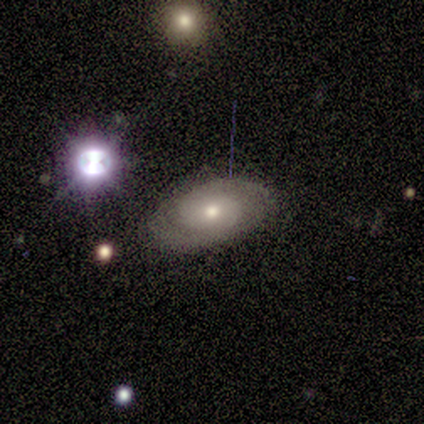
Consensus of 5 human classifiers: Smooth or featured: featured or disk — 60% (smooth — 40%)
Edge-on disk: no — 67% (yes — 33%)
Bar: no — 100%
Spiral arms: yes — 100%
Spiral winding: tight — 50% (tied with medium — 50%)
Spiral arm count: 2 — 100%
Bulge size: moderate — 50% (tied with small — 50%)
Merging: none — 100%